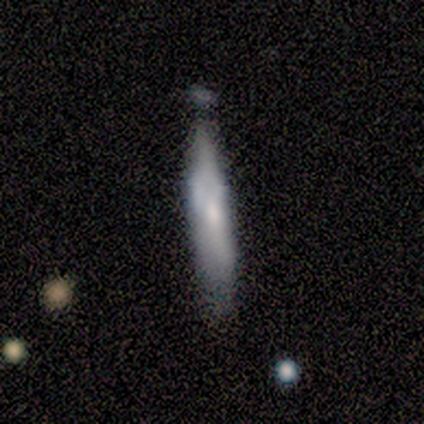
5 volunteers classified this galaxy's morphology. featured or disk 80%, smooth 20%, star or artifact 0%. Down the decision tree: edge-on disk — yes (50%, tied with no); edge-on bulge — none (100%); merging — minor disturbance (60%).